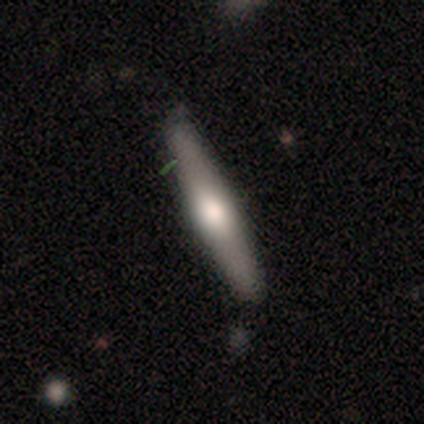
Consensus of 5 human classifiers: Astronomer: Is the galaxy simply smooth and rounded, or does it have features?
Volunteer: smooth — 60% (runner-up: featured or disk, 40%).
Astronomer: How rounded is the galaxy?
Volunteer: cigar-shaped — 100%.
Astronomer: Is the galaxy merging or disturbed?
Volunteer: none — 100%.